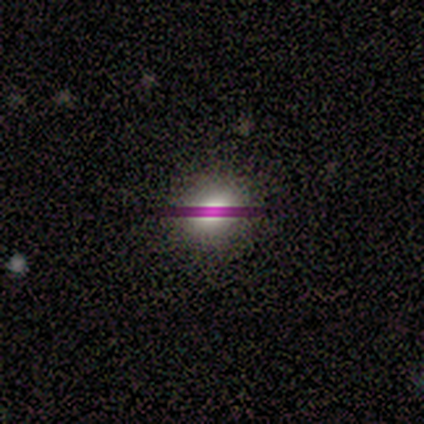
Volunteers were most divided on "how rounded": round: 75%, in between: 25%, cigar-shaped: 0%. More confident: merging — none (100%); smooth or featured — smooth (80%).